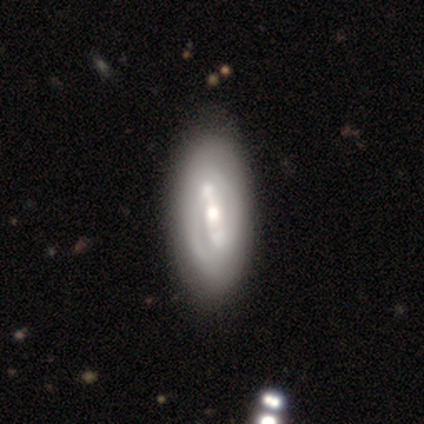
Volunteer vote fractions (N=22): This is likely a featured or disk galaxy (64%). It is clearly not viewed edge-on (100%). Bar: likely strong (64%). Spiral arm pattern: likely yes (79%). Spiral arm count: clearly 2 (91%). Spiral winding: possibly tight (55%). Central bulge: likely moderate (71%). Merging: possibly none (45%).